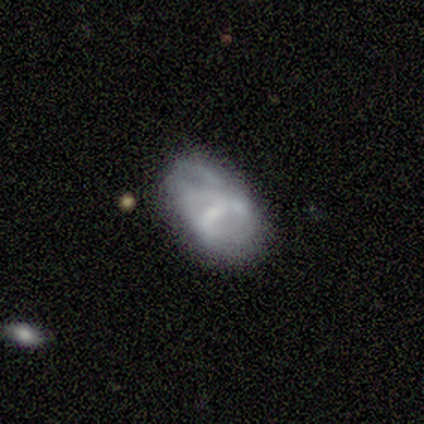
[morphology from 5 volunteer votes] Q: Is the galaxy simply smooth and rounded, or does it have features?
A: featured or disk — 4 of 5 (80%).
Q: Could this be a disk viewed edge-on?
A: no — 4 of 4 (100%).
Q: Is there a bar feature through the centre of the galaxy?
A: weak — 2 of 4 (50%, tied with no).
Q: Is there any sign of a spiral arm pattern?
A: yes — 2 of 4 (50%, tied with no).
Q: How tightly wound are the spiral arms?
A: tight — 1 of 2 (50%, tied with loose).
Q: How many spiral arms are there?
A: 2 — 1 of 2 (50%, tied with can't tell).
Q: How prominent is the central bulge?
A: small — 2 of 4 (50%).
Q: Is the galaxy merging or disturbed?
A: minor disturbance — 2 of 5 (40%).